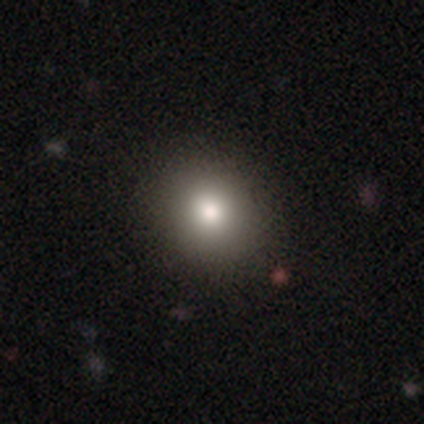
smooth 85%, featured or disk 10%, star or artifact 5%. Down the decision tree: how rounded — round (88%); merging — none (73%).